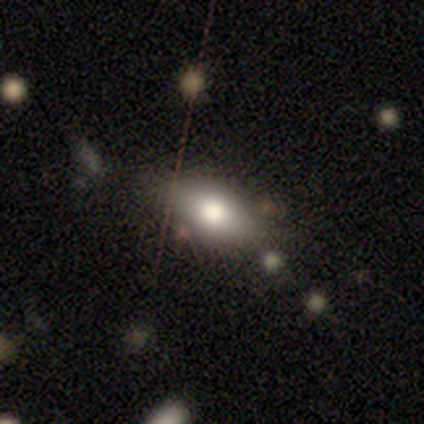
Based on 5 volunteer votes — smooth 80%, star or artifact 20%, featured or disk 0%. Down the decision tree: how rounded — in between (100%); merging — none (100%).